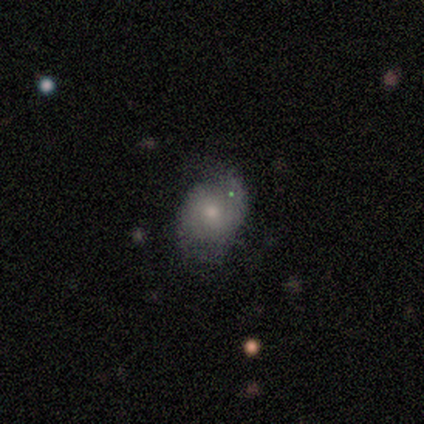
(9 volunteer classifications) Morphology: type=smooth (44%, tied with featured or disk); roundness=round (50%, tied with in between); merging=none (62%).